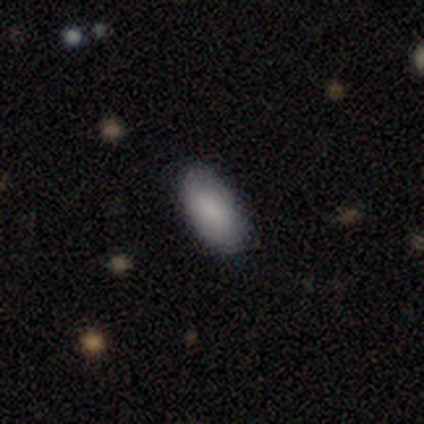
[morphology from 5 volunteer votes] type=smooth (80%); roundness=in between (100%); merging=none (100%).